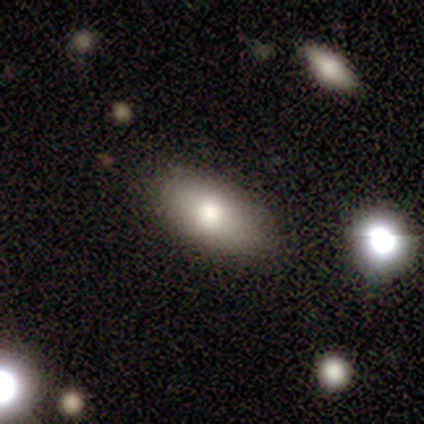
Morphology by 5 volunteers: Smooth or featured: smooth — 60% (featured or disk — 20%)
How rounded: in between — 100%
Merging: none — 50% (tied with minor disturbance — 50%)